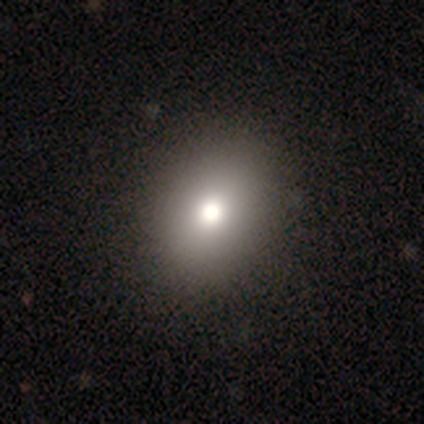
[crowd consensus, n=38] Smooth or featured?
  - smooth: 74% *
  - featured or disk: 13%
  - star or artifact: 13%
How rounded?
  - round: 64% *
  - in between: 36%
  - cigar-shaped: 0%
Merging?
  - none: 88% *
  - major disturbance: 9%
  - minor disturbance: 3%
  - merger: 0%